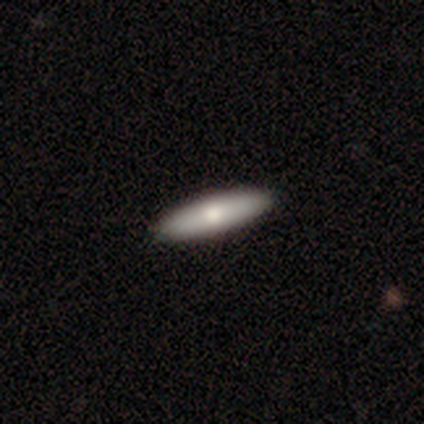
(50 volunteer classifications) A smooth galaxy with no disk features (74%) that is cigar-shaped (78%).

Vote fractions:
- Smooth or featured? smooth: 74% / featured or disk: 24% / star or artifact: 2%
- How rounded? cigar-shaped: 78% / in between: 22% / round: 0%
- Merging? none: 94% / minor disturbance: 6% / major disturbance: 0% / merger: 0%